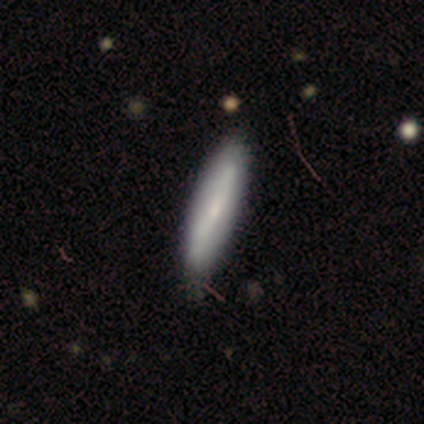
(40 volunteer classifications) Morphology: type=smooth (62%); roundness=cigar-shaped (76%); merging=none (61%).